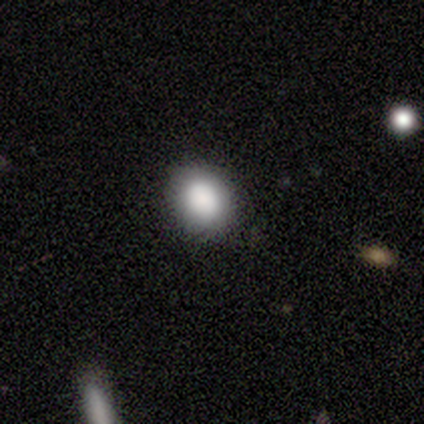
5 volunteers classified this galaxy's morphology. A smooth galaxy with no disk features (100%) that is in between round and cigar-shaped (100%).

Vote fractions:
- Smooth or featured? smooth: 100% / featured or disk: 0% / star or artifact: 0%
- How rounded? in between: 100% / round: 0% / cigar-shaped: 0%
- Merging? none: 100% / minor disturbance: 0% / major disturbance: 0% / merger: 0%